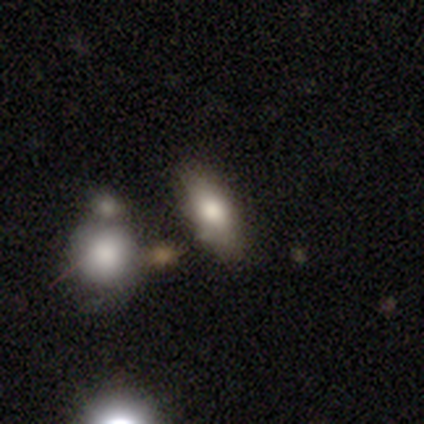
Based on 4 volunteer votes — Overall: smooth (50%, tied with featured or disk). How rounded: in between (100%). Merging: none (50%; minor disturbance 25%).